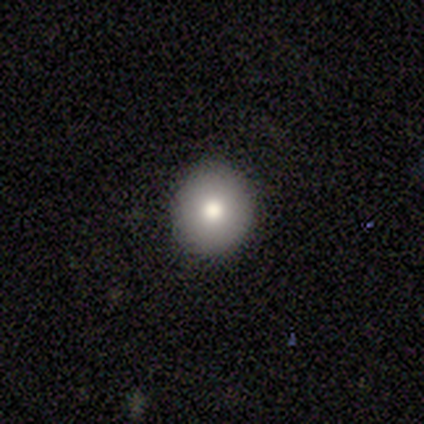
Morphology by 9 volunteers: smooth 67%, featured or disk 22%, star or artifact 11%. Down the decision tree: how rounded — round (100%); merging — none (100%).